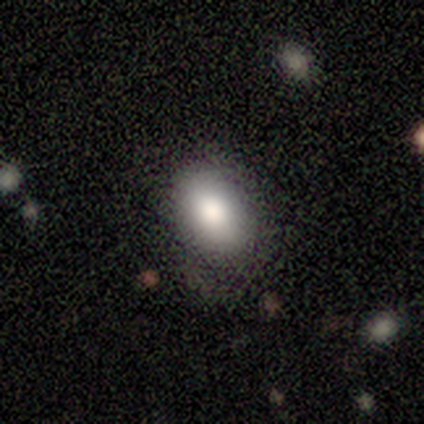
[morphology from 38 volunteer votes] type=smooth (82%); roundness=in between (81%); merging=none (74%).